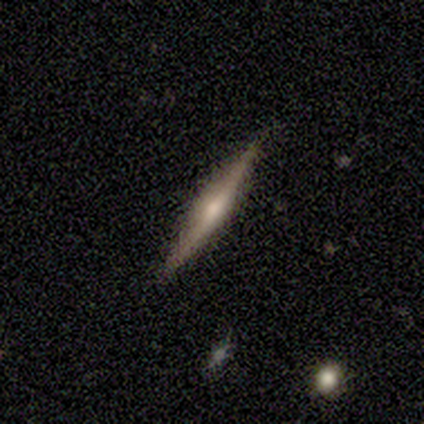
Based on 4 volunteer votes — Smooth or featured?
  - featured or disk: 50% *
  - smooth: 25%
  - star or artifact: 25%
Edge-on disk?
  - yes: 100% *
  - no: 0%
Edge-on bulge?
  - rounded: 100% *
  - boxy: 0%
  - none: 0%
Merging?
  - none: 100% *
  - minor disturbance: 0%
  - major disturbance: 0%
  - merger: 0%